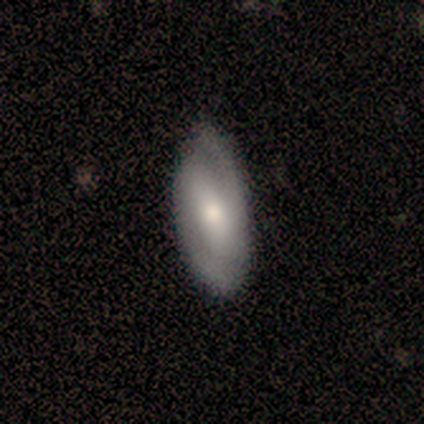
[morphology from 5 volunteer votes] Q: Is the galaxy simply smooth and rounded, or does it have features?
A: featured or disk — 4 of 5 (80%).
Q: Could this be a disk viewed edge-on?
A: no — 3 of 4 (75%).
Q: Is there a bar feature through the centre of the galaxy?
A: weak — 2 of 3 (67%).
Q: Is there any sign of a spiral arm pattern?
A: yes — 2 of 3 (67%).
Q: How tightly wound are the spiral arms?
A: tight — 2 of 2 (100%).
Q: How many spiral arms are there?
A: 2 — 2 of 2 (100%).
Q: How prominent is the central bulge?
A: moderate — 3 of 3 (100%).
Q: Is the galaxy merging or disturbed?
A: minor disturbance — 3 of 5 (60%).